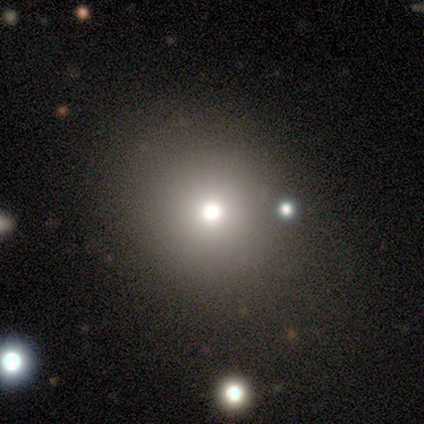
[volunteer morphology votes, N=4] A smooth galaxy with no disk features (75%) that is round (67%).

Vote fractions:
- Smooth or featured? smooth: 75% / star or artifact: 25% / featured or disk: 0%
- How rounded? round: 67% / in between: 33% / cigar-shaped: 0%
- Merging? none: 100% / minor disturbance: 0% / major disturbance: 0% / merger: 0%